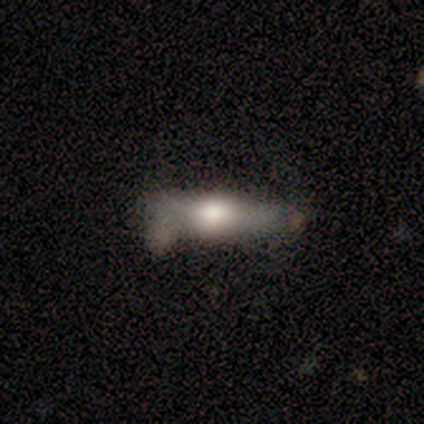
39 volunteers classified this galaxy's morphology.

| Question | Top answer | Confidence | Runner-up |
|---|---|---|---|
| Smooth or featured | featured or disk | 49% | smooth (46%) |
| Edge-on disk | yes | 89% | no (11%) |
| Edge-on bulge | rounded | 76% | boxy (24%) |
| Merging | none | 51% | minor disturbance (30%) |